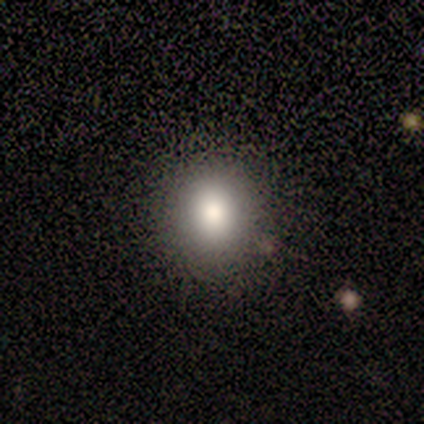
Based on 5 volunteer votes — This is clearly a smooth galaxy (80%). How rounded: likely round (75%). Merging: clearly none (100%).